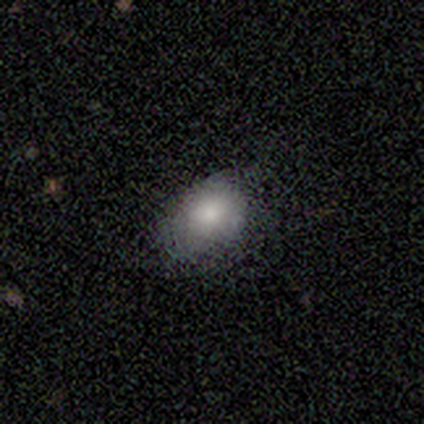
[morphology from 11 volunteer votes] Smooth or featured? smooth (91%)
How rounded? in between (80%)
Merging? none (64%)